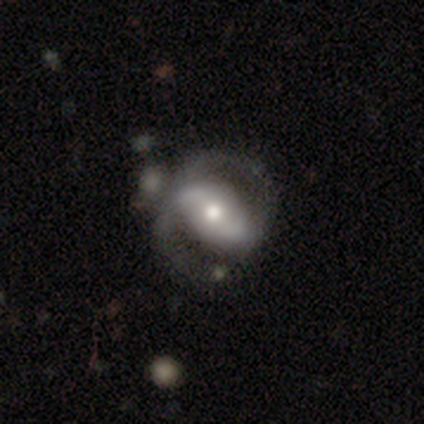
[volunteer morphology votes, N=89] This appears to be a featured or disk galaxy (82%) with a weak bar (37%), 2 (86%) medium (41%) spiral arms (84%) and a moderate central bulge (60%). Merging: none (51%).